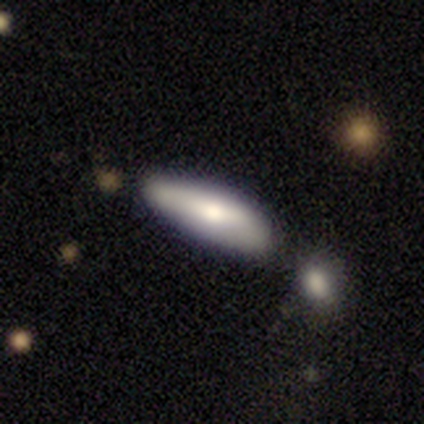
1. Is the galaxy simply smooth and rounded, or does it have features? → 75% smooth, 22% featured or disk, 2% star or artifact.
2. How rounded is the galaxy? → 67% cigar-shaped, 33% in between, 0% round.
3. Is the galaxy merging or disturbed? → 54% none, 26% minor disturbance, 10% major disturbance, 10% merger.